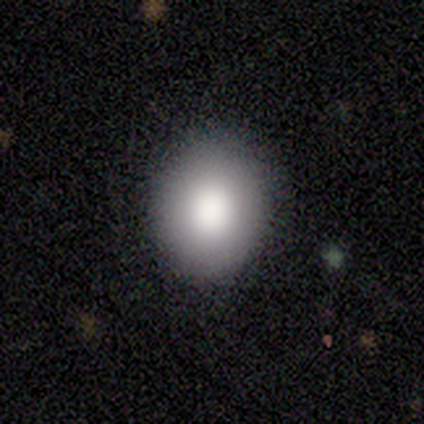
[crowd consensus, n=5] This is clearly a smooth galaxy (80%). How rounded: possibly round (50%, tied with in between). Merging: clearly none (80%).